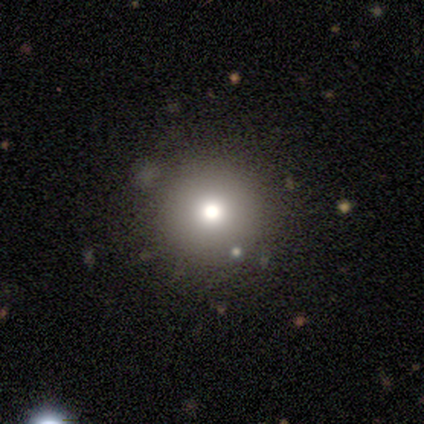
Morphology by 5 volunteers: smooth_or_featured: smooth (p=0.80) [alt: star or artifact p=0.20]
how_rounded: round (p=1.00)
merging: none (p=1.00)